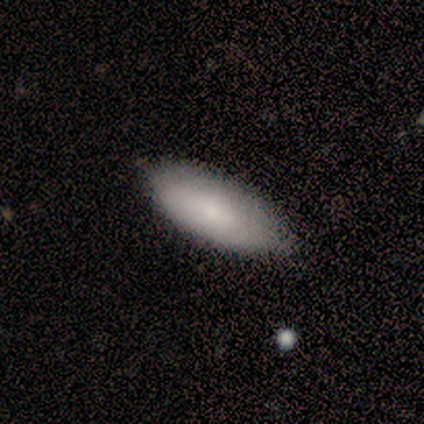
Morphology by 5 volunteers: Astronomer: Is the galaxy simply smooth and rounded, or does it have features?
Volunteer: smooth — 80%.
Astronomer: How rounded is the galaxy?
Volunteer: in between — 75%.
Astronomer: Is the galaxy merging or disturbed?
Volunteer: none — 80%.